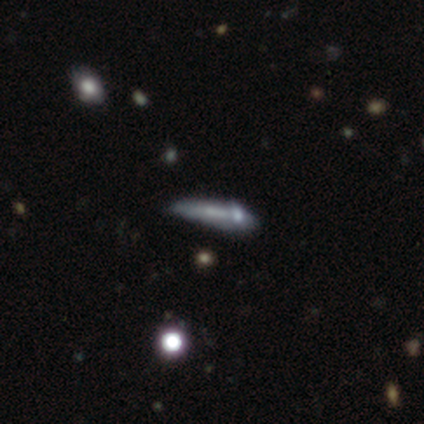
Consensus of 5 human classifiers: This appears to be a featured or disk galaxy (60%) viewed edge-on (100%) with a rounded central bulge (100%). Merging: none (60%).